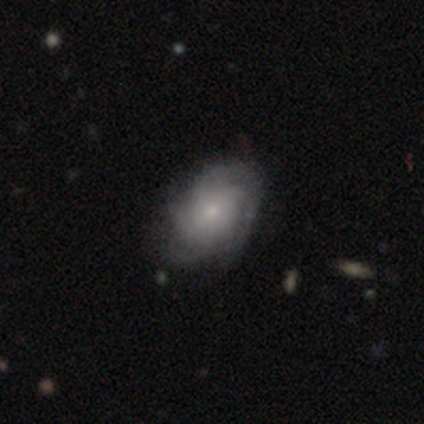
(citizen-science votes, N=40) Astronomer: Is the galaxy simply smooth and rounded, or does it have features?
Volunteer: featured or disk — 82%.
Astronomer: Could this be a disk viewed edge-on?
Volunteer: no — 97%.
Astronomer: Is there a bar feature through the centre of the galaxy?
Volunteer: no — 88%.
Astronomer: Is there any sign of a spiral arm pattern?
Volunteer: yes — 88%.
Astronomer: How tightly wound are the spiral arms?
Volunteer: tight — 57%.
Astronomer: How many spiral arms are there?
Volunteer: can't tell — 39% (runner-up: 4, 36%).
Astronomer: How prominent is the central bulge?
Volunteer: small — 69%.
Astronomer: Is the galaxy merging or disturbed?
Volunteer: none — 60%.